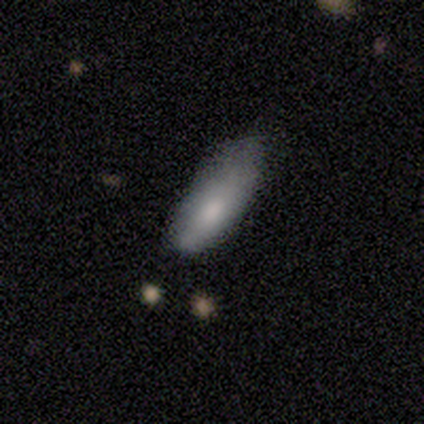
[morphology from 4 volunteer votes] This is clearly a smooth galaxy (100%). How rounded: likely in between (75%). Merging: possibly minor disturbance (50%).